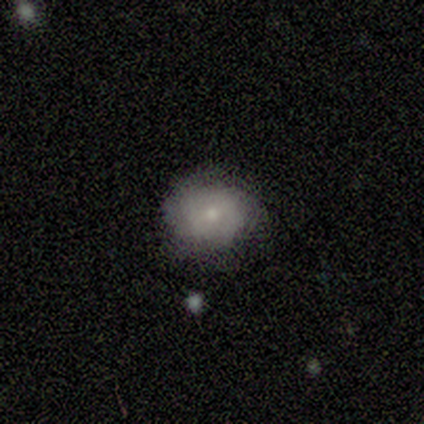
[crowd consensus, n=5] featured or disk 100%, smooth 0%, star or artifact 0%. Down the decision tree: edge-on disk — no (100%); bar — no (80%); spiral arms — no (60%); bulge size — small (80%); merging — none (60%).